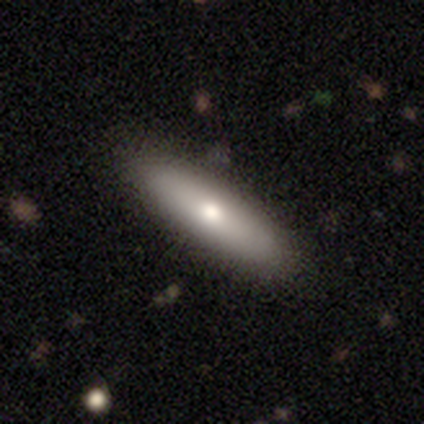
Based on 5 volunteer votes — Smooth or featured? smooth (80%)
How rounded? cigar-shaped (100%)
Merging? none (100%)